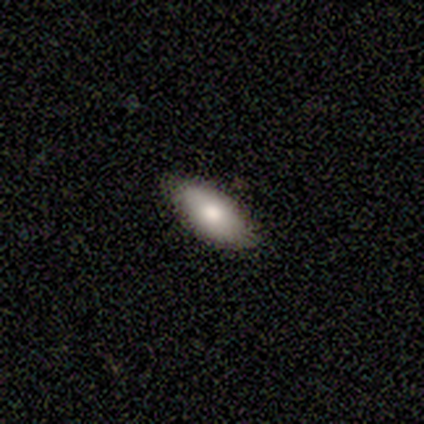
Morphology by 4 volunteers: smooth-or-featured: smooth: 75% | featured or disk: 25% | star or artifact: 0%
  how-rounded: in between: 100% | round: 0% | cigar-shaped: 0%
  merging: none: 75% | minor disturbance: 25% | major disturbance: 0% | merger: 0%